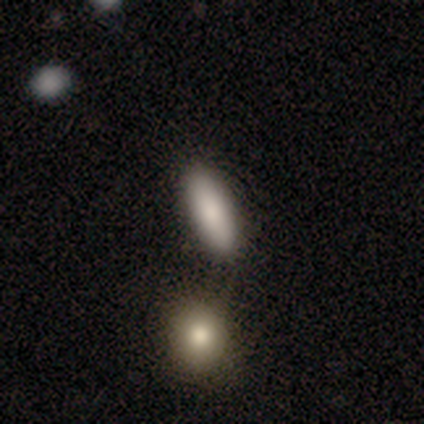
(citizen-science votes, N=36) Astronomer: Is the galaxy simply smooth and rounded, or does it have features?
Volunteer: smooth — 94%.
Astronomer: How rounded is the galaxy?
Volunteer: in between — 68%.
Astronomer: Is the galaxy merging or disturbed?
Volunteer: none — 43% (runner-up: merger, 37%).